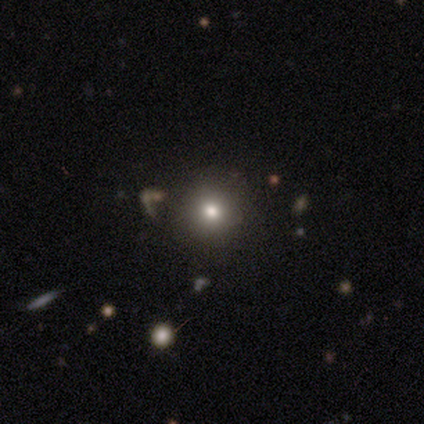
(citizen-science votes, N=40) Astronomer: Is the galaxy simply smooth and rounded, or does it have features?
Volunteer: smooth — 82%.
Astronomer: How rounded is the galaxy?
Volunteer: round — 97%.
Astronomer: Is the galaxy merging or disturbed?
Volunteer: none — 86%.